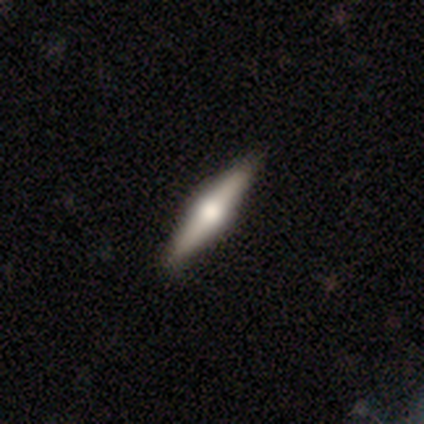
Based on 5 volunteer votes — Smooth or featured? featured or disk (60%)
Edge-on disk? yes (100%)
Edge-on bulge? rounded (100%)
Merging? none (80%)